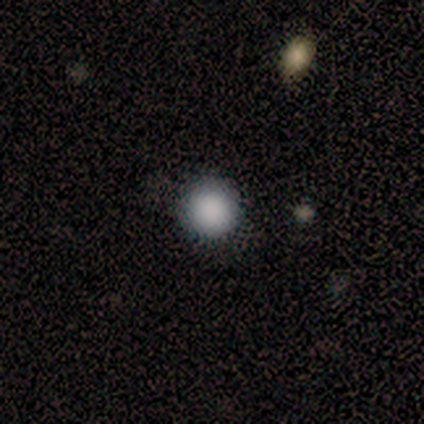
Smooth or featured?
  - smooth: 80% *
  - star or artifact: 20%
  - featured or disk: 0%
How rounded?
  - round: 100% *
  - in between: 0%
  - cigar-shaped: 0%
Merging?
  - none: 100% *
  - minor disturbance: 0%
  - major disturbance: 0%
  - merger: 0%